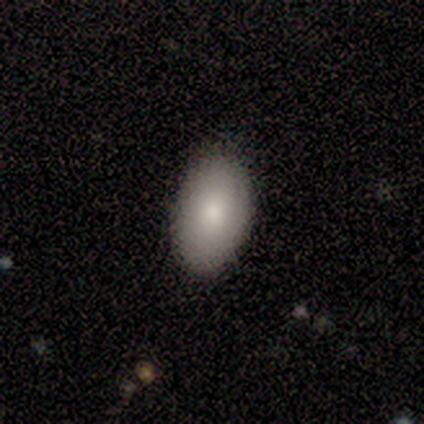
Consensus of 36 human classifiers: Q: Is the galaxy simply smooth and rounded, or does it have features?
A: smooth — 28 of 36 (78%).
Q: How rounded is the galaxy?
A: in between — 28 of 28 (100%).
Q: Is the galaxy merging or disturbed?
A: none — 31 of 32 (97%).